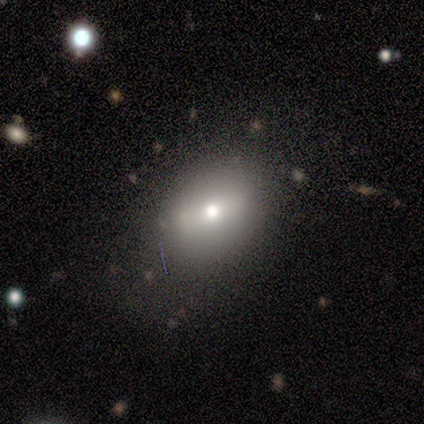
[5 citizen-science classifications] featured or disk 100%, smooth 0%, star or artifact 0%. Down the decision tree: edge-on disk — yes (60%); edge-on bulge — rounded (67%); merging — none (80%).